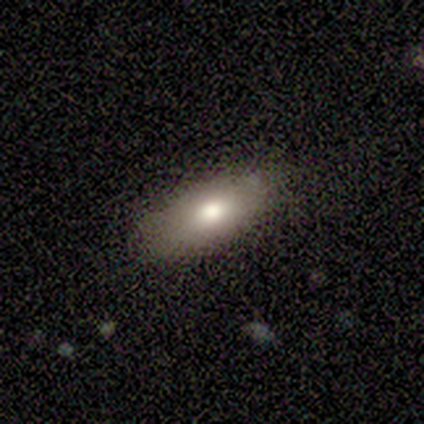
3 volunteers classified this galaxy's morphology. Smooth or featured? smooth (67%)
How rounded? in between (100%)
Merging? none (100%)